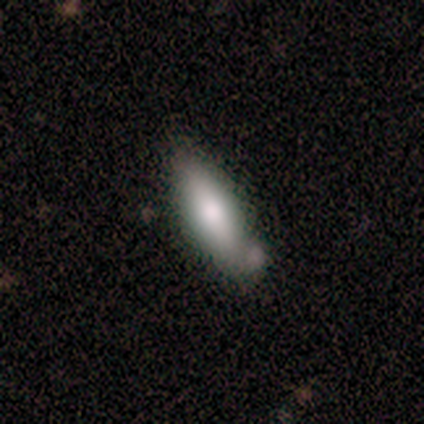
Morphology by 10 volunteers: Volunteers were most divided on "merging" (2-way tie): none: 30%, minor disturbance: 30%, major disturbance: 20%, merger: 20%. More confident: smooth or featured — smooth (70%); how rounded — in between (57%).